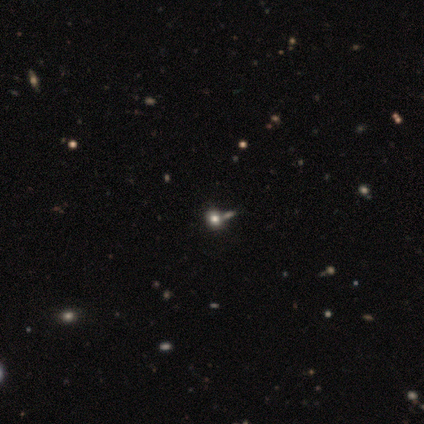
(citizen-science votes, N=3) Smooth or featured? star or artifact (100%)